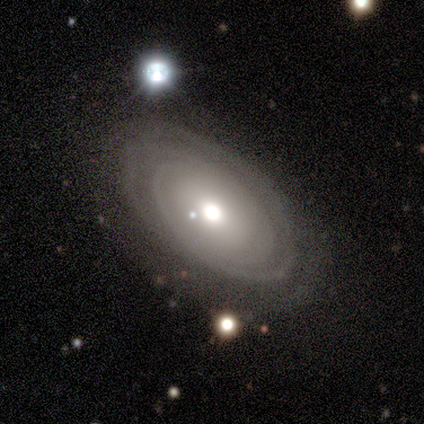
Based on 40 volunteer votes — Smooth or featured? 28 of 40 (70%) said featured or disk. Edge-on disk? 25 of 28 (89%) said no. Bar? 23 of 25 (92%) said no. Spiral arms? 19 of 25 (76%) said yes. Spiral winding? 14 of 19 (74%) said tight. Spiral arm count? 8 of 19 (42%) said can't tell. Bulge size? 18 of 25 (72%) said moderate. Merging? 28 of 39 (72%) said none.